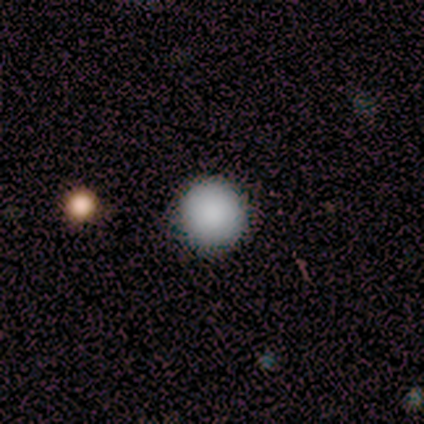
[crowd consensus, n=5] This is likely a smooth galaxy (60%). How rounded: clearly round (100%). Merging: clearly none (100%).